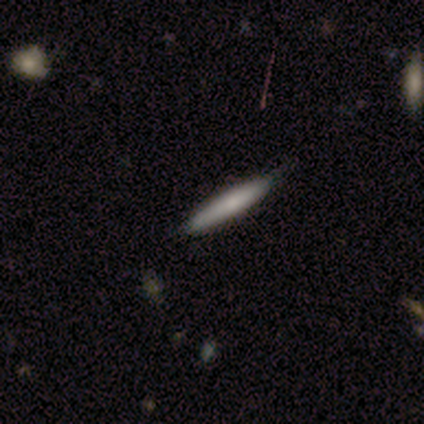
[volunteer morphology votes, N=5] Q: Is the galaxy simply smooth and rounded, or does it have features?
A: featured or disk — 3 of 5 (60%).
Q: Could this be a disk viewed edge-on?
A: yes — 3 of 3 (100%).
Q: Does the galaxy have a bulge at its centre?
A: rounded — 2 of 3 (67%).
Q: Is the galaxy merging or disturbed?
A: none — 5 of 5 (100%).